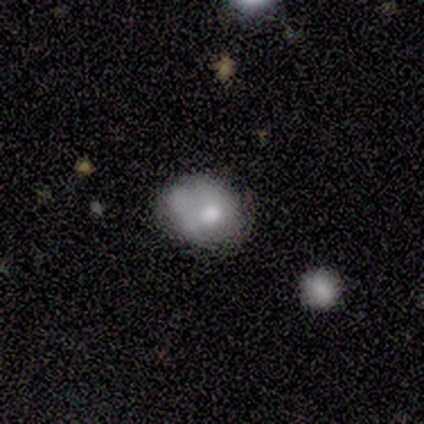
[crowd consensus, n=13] A smooth galaxy with no disk features (54%) that is round (57%). Merging: minor disturbance (60%).